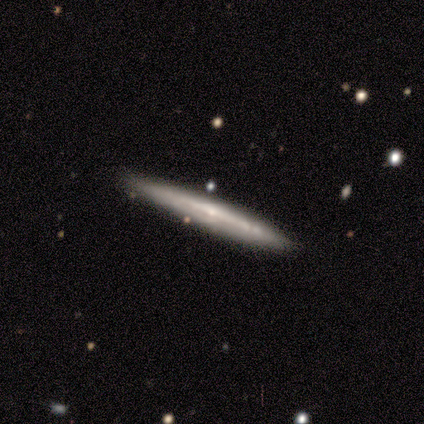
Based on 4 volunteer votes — Smooth or featured? 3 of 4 (75%) said featured or disk. Edge-on disk? 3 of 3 (100%) said yes. Edge-on bulge? 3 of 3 (100%) said none. Merging? 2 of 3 (67%) said none.